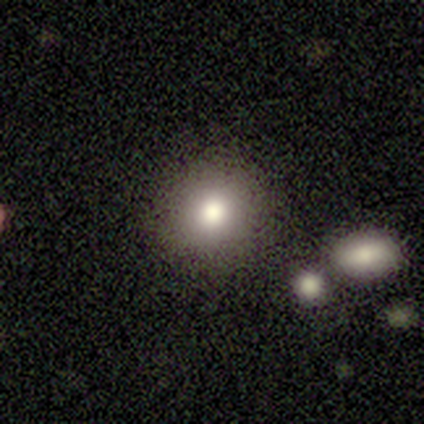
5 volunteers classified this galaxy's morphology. Volunteers were most divided on "smooth or featured": smooth: 80%, star or artifact: 20%, featured or disk: 0%. More confident: how rounded — round (100%); merging — none (100%).